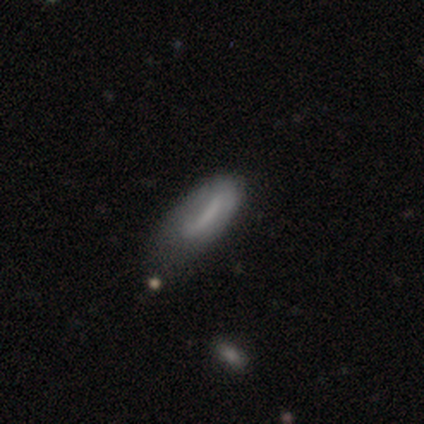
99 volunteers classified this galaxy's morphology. Smooth or featured? smooth (58%)
How rounded? in between (68%)
Merging? minor disturbance (43%)